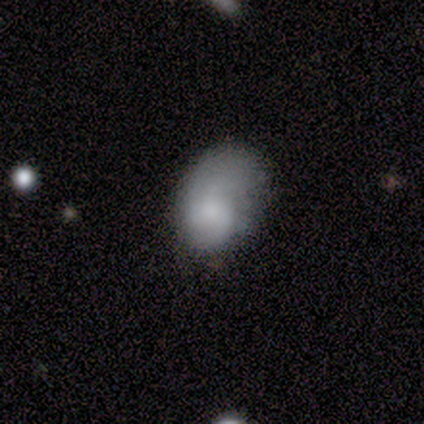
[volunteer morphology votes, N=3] featured or disk 67%, smooth 33%, star or artifact 0%. Down the decision tree: edge-on disk — no (100%); bar — weak (100%); spiral arms — yes (50%, tied with no); spiral arm count — can't tell (100%); spiral winding — medium (100%); bulge size — small (100%); merging — minor disturbance (67%).